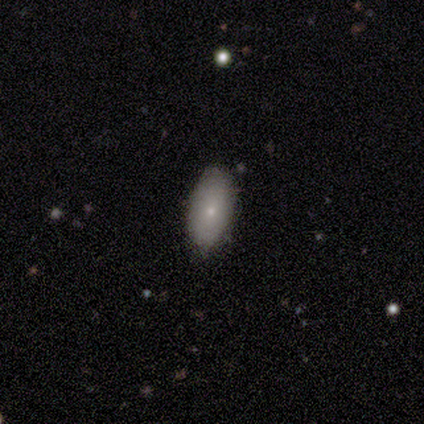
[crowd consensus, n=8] Q: Smooth or featured?
A: smooth (88%); runner-up: star or artifact (12%)
Q: How rounded?
A: in between (86%); runner-up: round (14%)
Q: Merging?
A: none (100%)